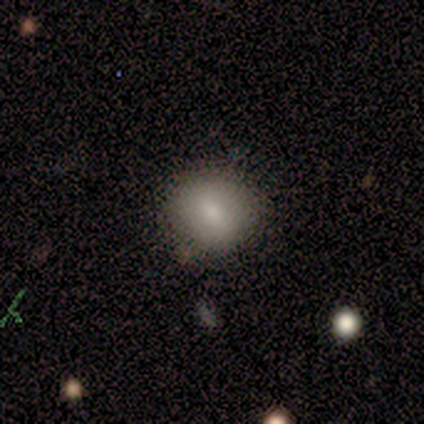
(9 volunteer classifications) This appears to be a smooth galaxy with no disk features (78%) that is round (86%). Merging: none (62%).